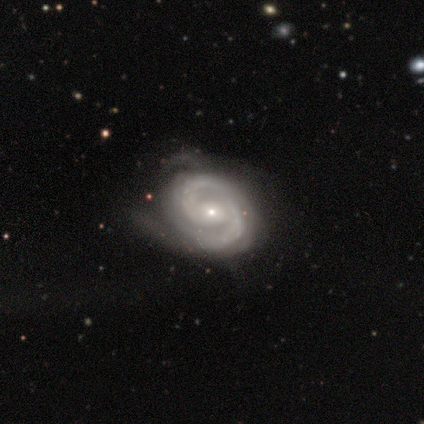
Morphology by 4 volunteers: featured or disk 100%, smooth 0%, star or artifact 0%. Down the decision tree: edge-on disk — no (100%); bar — no (75%); spiral arms — yes (100%); spiral arm count — 2 (75%); spiral winding — medium (50%); bulge size — small (75%); merging — none (75%).